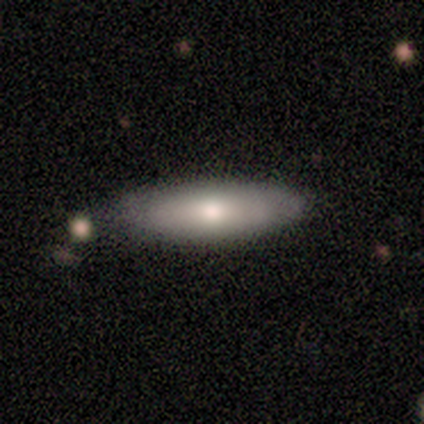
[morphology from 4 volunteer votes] Smooth or featured?
  - smooth: 50% * (tied)
  - featured or disk: 50% * (tied)
  - star or artifact: 0%
How rounded?
  - in between: 100% *
  - round: 0%
  - cigar-shaped: 0%
Merging?
  - none: 50% *
  - minor disturbance: 25%
  - merger: 25%
  - major disturbance: 0%